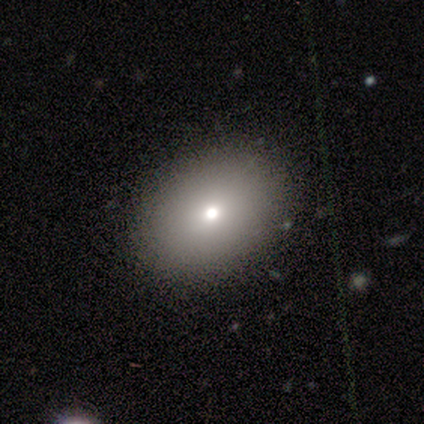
This is clearly a smooth galaxy (86%). How rounded: likely in between (75%). Merging: clearly none (92%).